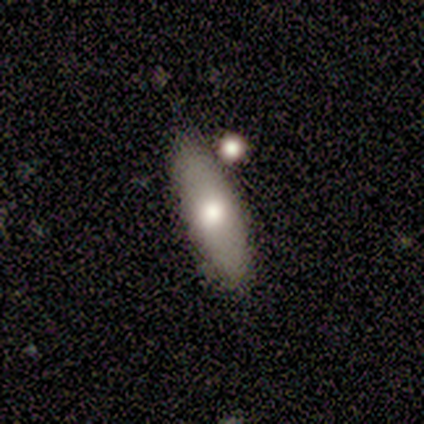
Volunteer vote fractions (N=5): This appears to be a smooth galaxy with no disk features (60%) that is cigar-shaped (100%). Merging: none (100%).